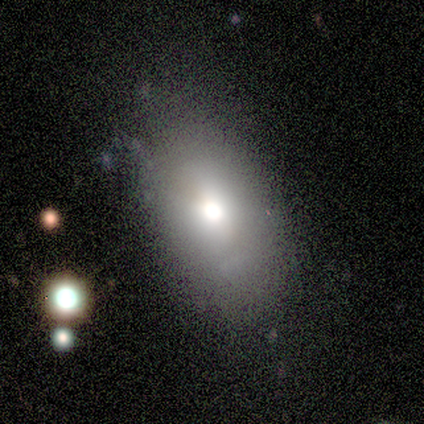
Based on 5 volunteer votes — This is clearly a smooth galaxy (100%). How rounded: clearly in between (80%). Merging: clearly none (80%).